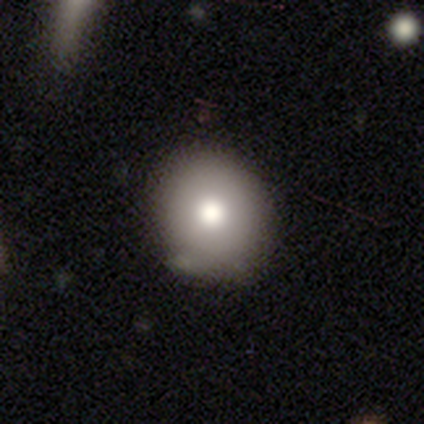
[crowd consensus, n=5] A smooth galaxy with no disk features (100%) that is round (80%).

Vote fractions:
- Smooth or featured? smooth: 100% / featured or disk: 0% / star or artifact: 0%
- How rounded? round: 80% / in between: 20% / cigar-shaped: 0%
- Merging? none: 100% / minor disturbance: 0% / major disturbance: 0% / merger: 0%